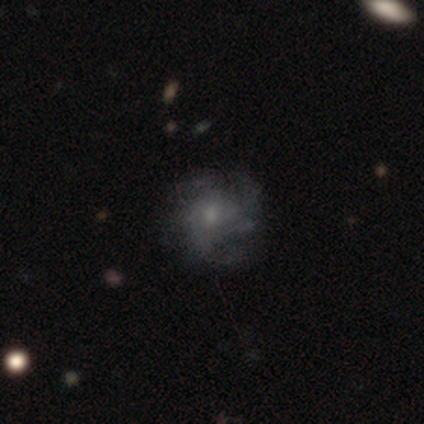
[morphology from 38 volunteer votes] Overall: featured or disk (55%; smooth 42%). Edge-on disk: no (100%). Bar: no (71%). Spiral arms: yes (86%). Spiral arm count: 4 (33%, tied with can't tell). Spiral winding: medium (44%; loose 33%). Bulge size: small (62%; moderate 33%). Merging: none (78%).